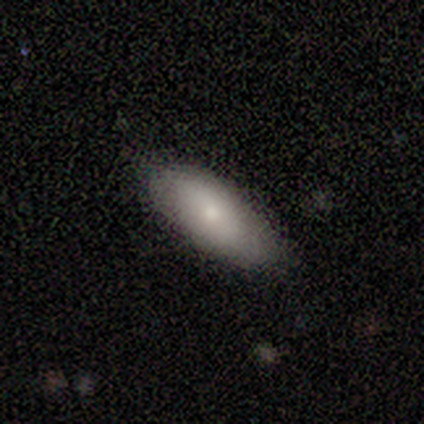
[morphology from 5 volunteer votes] A smooth galaxy with no disk features (80%) that is in between round and cigar-shaped (100%). Merging: none (100%).